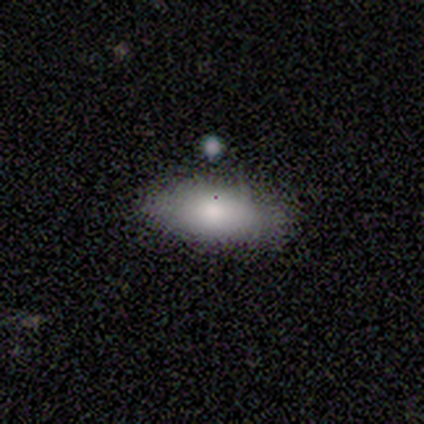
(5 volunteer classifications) A smooth galaxy with no disk features (60%) that is cigar-shaped (67%).

Vote fractions:
- Smooth or featured? smooth: 60% / featured or disk: 40% / star or artifact: 0%
- How rounded? cigar-shaped: 67% / in between: 33% / round: 0%
- Merging? none: 80% / minor disturbance: 20% / major disturbance: 0% / merger: 0%